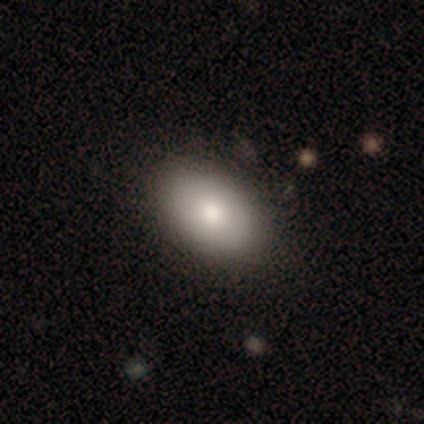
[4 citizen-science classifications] smooth-or-featured: smooth: 100% | featured or disk: 0% | star or artifact: 0%
  how-rounded: in between: 100% | round: 0% | cigar-shaped: 0%
  merging: none: 100% | minor disturbance: 0% | major disturbance: 0% | merger: 0%